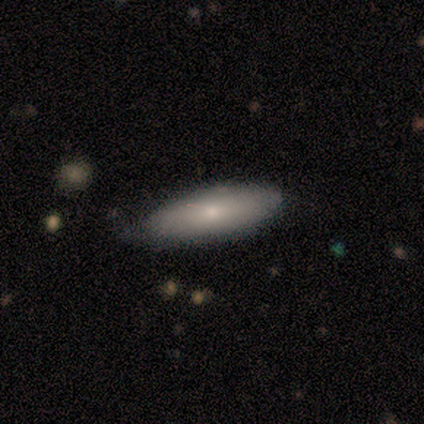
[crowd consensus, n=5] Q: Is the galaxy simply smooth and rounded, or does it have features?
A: smooth — 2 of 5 (40%, tied with featured or disk).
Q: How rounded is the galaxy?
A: in between — 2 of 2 (100%).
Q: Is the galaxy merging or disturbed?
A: none — 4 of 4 (100%).